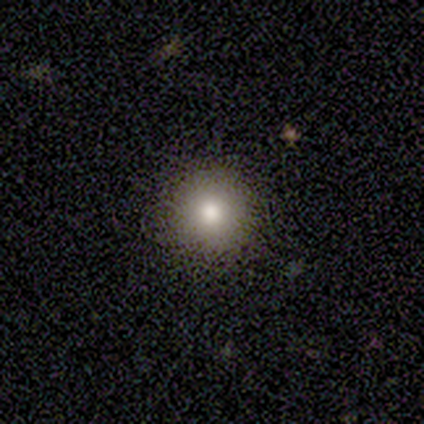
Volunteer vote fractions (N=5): Smooth or featured?
  - smooth: 60% *
  - featured or disk: 20%
  - star or artifact: 20%
How rounded?
  - round: 67% *
  - in between: 33%
  - cigar-shaped: 0%
Merging?
  - none: 100% *
  - minor disturbance: 0%
  - major disturbance: 0%
  - merger: 0%